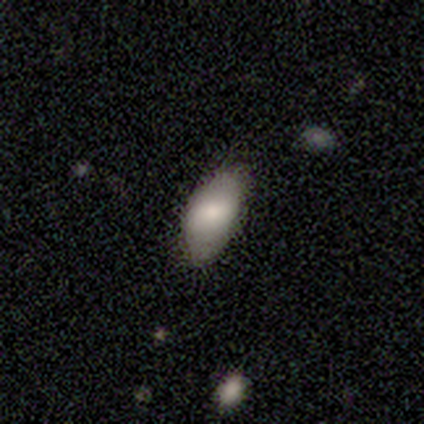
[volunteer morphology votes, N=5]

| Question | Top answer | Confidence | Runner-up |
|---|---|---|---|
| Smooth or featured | smooth | 60% | featured or disk (20%) |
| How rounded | in between | 100% | — |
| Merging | none | 75% | minor disturbance (25%) |